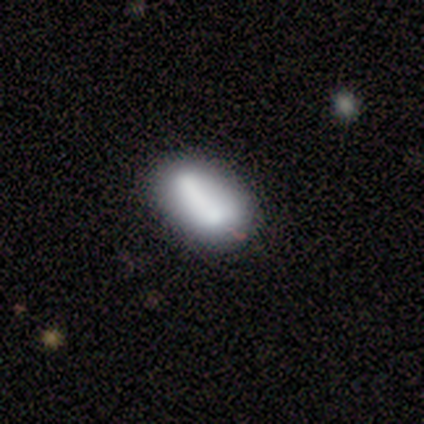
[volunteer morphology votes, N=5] Smooth or featured?
  - smooth: 100% *
  - featured or disk: 0%
  - star or artifact: 0%
How rounded?
  - in between: 100% *
  - round: 0%
  - cigar-shaped: 0%
Merging?
  - none: 40% * (tied)
  - merger: 40% * (tied)
  - minor disturbance: 20%
  - major disturbance: 0%